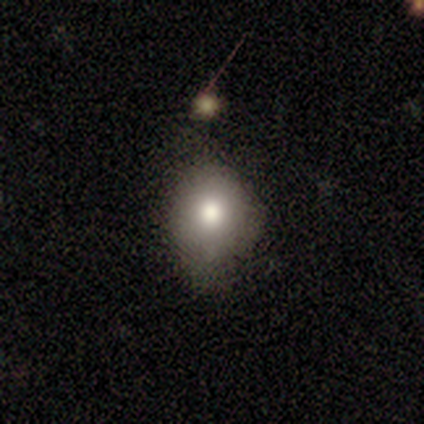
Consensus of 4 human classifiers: This is clearly a smooth galaxy (100%). How rounded: possibly round (50%, tied with in between). Merging: likely minor disturbance (75%).